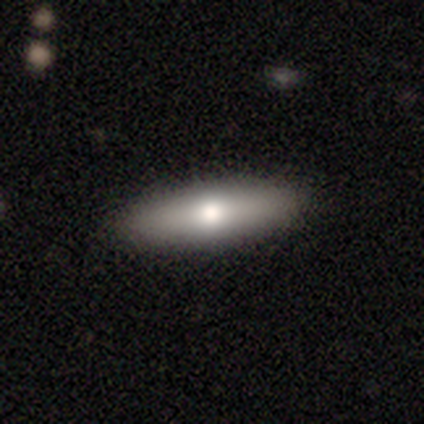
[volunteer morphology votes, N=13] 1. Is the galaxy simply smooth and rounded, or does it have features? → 62% smooth, 38% featured or disk, 0% star or artifact.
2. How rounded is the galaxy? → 62% in between, 38% cigar-shaped, 0% round.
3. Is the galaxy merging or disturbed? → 92% none, 8% major disturbance, 0% minor disturbance, 0% merger.